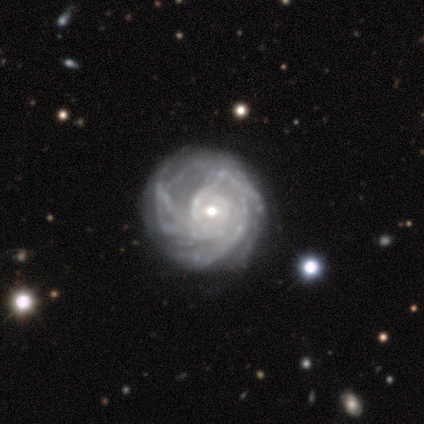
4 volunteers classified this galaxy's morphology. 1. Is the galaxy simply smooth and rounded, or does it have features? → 100% featured or disk, 0% smooth, 0% star or artifact.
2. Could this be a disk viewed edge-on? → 100% no, 0% yes.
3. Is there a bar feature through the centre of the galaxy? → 75% no, 25% strong, 0% weak.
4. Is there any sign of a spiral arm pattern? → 100% yes, 0% no.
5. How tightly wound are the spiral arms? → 50% tight, 25% medium, 25% loose.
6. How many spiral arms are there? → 50% can't tell, 25% 2, 25% 3, 0% 1, 0% 4, 0% more than 4.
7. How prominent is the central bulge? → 50% moderate (tied), 50% small (tied), 0% dominant, 0% large, 0% none.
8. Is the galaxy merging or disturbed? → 50% none, 25% minor disturbance, 25% merger, 0% major disturbance.